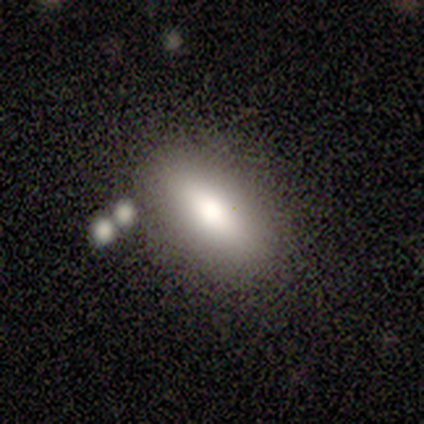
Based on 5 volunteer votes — Smooth or featured?
  - smooth: 60% *
  - featured or disk: 40%
  - star or artifact: 0%
How rounded?
  - cigar-shaped: 67% *
  - in between: 33%
  - round: 0%
Merging?
  - none: 100% *
  - minor disturbance: 0%
  - major disturbance: 0%
  - merger: 0%